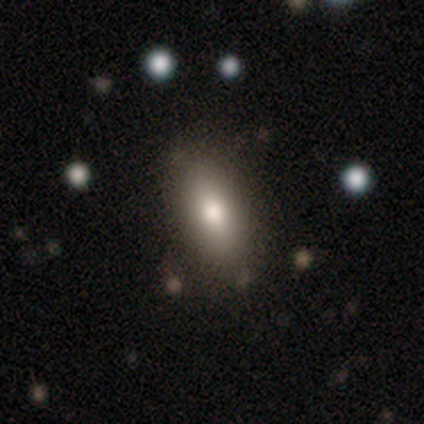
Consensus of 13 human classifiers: Volunteers were most divided on "how rounded": in between: 80%, cigar-shaped: 20%, round: 0%. More confident: merging — none (92%); smooth or featured — smooth (77%).